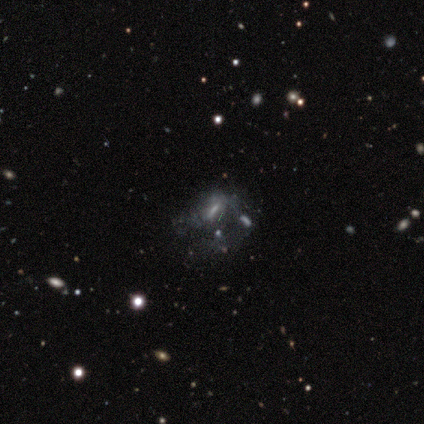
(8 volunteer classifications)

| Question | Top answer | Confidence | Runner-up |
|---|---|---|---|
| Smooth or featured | featured or disk | 50% | smooth (25%) |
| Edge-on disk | no | 100% | — |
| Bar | weak | 50% | tied: no (50%) |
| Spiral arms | no | 100% | — |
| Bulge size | none | 50% | large (25%) |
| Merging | major disturbance | 50% | none (33%) |